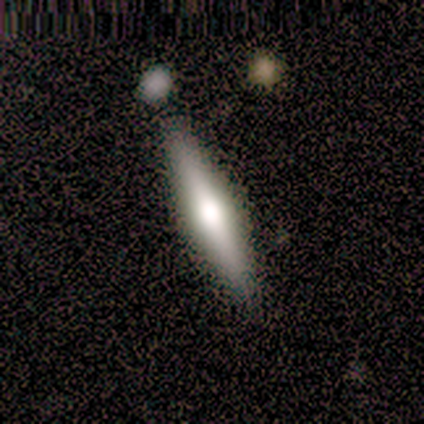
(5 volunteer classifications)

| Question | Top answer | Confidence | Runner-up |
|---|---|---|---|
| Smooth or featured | smooth | 60% | featured or disk (40%) |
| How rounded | cigar-shaped | 100% | — |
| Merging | none | 60% | minor disturbance (40%) |